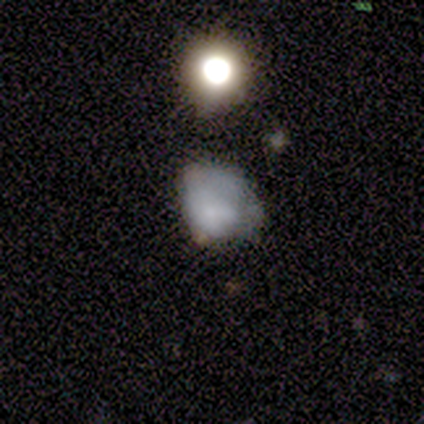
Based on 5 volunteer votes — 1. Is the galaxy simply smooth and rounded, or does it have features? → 60% featured or disk, 20% smooth, 20% star or artifact.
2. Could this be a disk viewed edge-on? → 100% no, 0% yes.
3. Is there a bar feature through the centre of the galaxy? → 67% no, 33% weak, 0% strong.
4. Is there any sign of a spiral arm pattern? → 100% no, 0% yes.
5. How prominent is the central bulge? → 33% moderate (tied), 33% small (tied), 33% none (tied), 0% dominant, 0% large.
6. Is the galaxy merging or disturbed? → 50% minor disturbance (tied), 50% major disturbance (tied), 0% none, 0% merger.